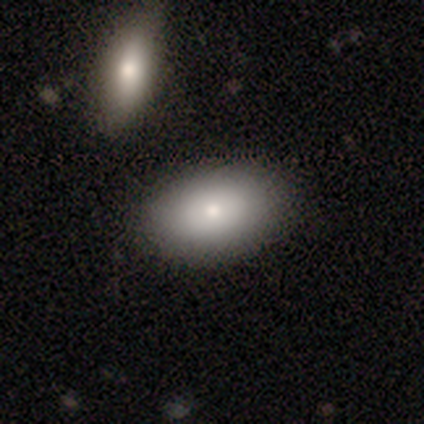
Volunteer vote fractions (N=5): smooth_or_featured: smooth (p=1.00)
how_rounded: in between (p=1.00)
merging: none (p=1.00)